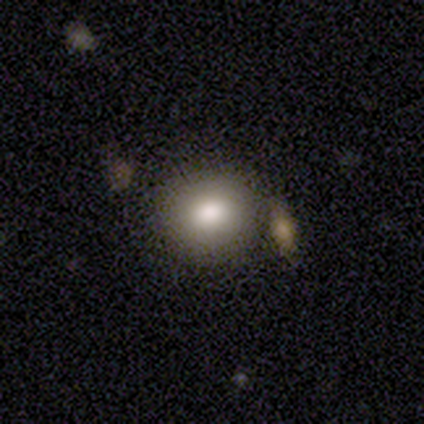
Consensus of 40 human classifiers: smooth 92%, star or artifact 5%, featured or disk 2%. Down the decision tree: how rounded — round (76%); merging — none (74%).